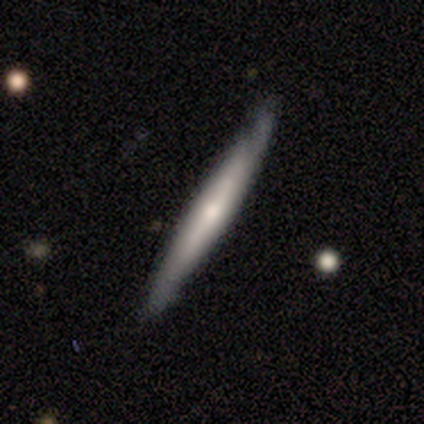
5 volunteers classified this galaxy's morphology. Smooth or featured? featured or disk (60%)
Edge-on disk? yes (67%)
Edge-on bulge? none (50%, tied with rounded)
Merging? none (100%)